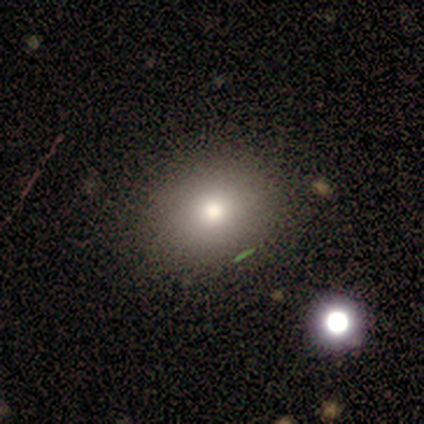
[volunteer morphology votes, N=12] smooth 75%, star or artifact 17%, featured or disk 8%. Down the decision tree: how rounded — round (67%); merging — none (90%).